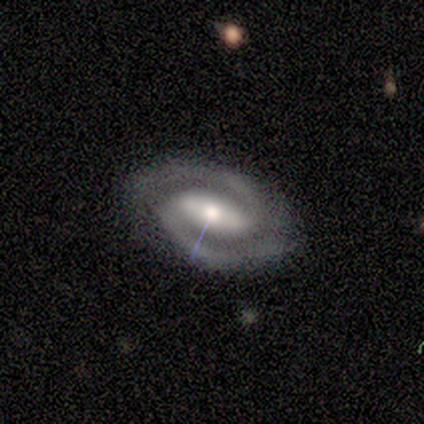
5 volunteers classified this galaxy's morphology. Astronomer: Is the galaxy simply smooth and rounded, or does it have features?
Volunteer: featured or disk — 80%.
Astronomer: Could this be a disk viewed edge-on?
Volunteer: no — 100%.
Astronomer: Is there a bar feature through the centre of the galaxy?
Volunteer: strong — 75%.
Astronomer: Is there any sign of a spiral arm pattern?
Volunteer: yes — 100%.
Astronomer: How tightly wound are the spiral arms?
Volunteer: tight — 50%, tied with medium at 50%.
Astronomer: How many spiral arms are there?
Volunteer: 2 — 100%.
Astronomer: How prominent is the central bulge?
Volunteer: moderate — 75%.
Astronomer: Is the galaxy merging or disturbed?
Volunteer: none — 80%.